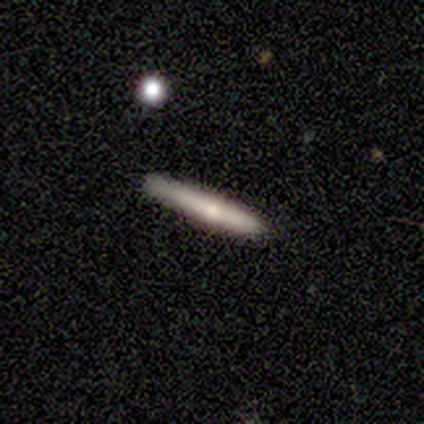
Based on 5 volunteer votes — This appears to be a smooth galaxy with no disk features (80%) that is cigar-shaped (100%). Merging: none (100%).